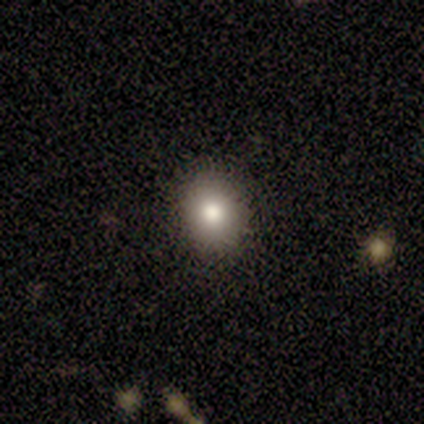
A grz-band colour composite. It shows a smooth galaxy with no disk features (60%) that is in between round and cigar-shaped (67%). Merging: none (100%).